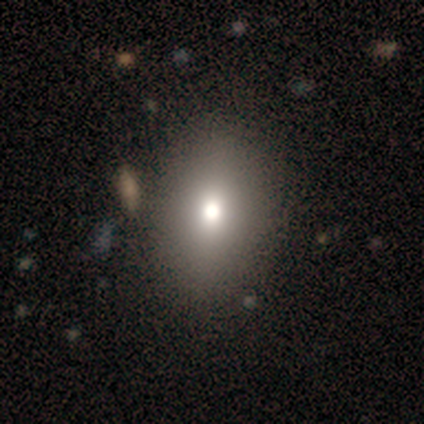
Smooth or featured? smooth (100%)
How rounded? in between (80%)
Merging? none (100%)